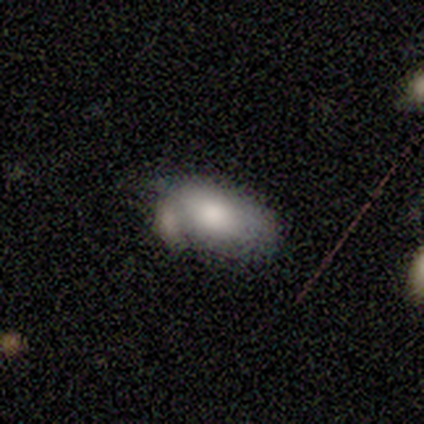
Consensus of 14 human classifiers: This is likely a smooth galaxy (79%). How rounded: clearly in between (100%). Merging: marginally none (31%, tied with minor disturbance).